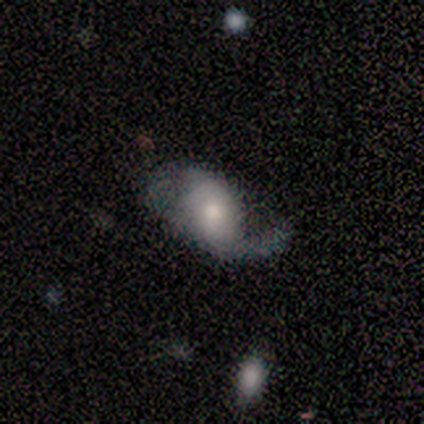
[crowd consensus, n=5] Smooth or featured? featured or disk (80%)
Edge-on disk? no (100%)
Bar? weak (75%)
Spiral arms? yes (100%)
Spiral winding? loose (75%)
Spiral arm count? 2 (50%)
Bulge size? moderate (75%)
Merging? minor disturbance (80%)